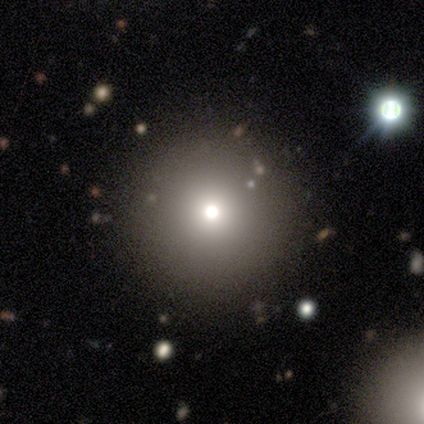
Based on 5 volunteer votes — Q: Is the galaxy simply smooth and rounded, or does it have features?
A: smooth — 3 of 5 (60%).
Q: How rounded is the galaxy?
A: round — 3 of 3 (100%).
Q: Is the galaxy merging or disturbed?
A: none — 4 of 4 (100%).